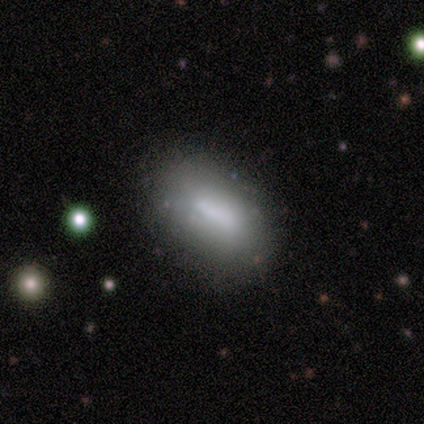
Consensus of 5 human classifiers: This is clearly a smooth galaxy (80%). How rounded: clearly in between (100%). Merging: clearly none (80%).